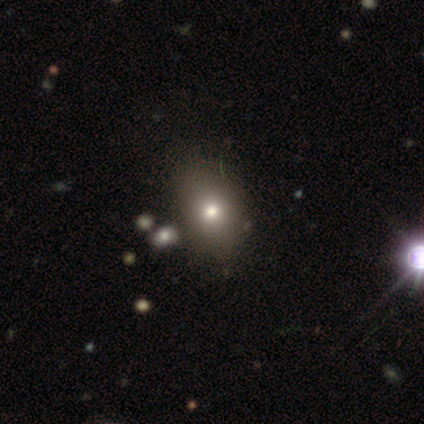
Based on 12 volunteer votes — This appears to be a smooth galaxy with no disk features (42%, tied with star or artifact) that is in between round and cigar-shaped (80%). Merging: none (57%).